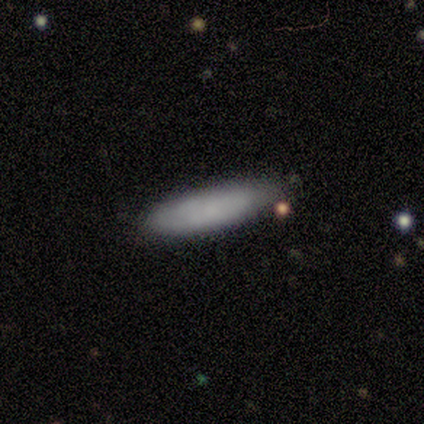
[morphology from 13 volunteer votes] This is likely a smooth galaxy (62%). How rounded: likely cigar-shaped (62%). Merging: clearly none (90%).